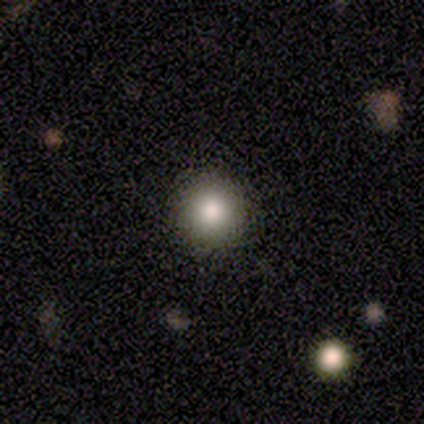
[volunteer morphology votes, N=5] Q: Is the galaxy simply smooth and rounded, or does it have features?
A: smooth — 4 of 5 (80%).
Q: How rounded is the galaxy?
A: round — 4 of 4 (100%).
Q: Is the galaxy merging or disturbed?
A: none — 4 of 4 (100%).